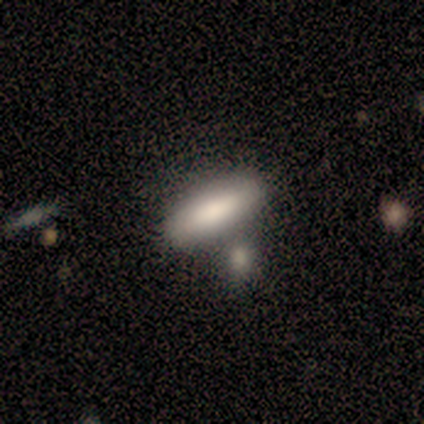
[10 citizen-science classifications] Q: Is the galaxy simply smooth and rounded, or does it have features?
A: smooth — 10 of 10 (100%).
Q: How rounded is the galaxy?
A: cigar-shaped — 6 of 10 (60%).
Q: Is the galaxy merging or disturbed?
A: none — 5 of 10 (50%).